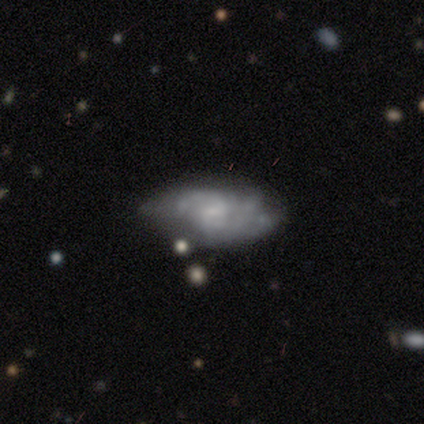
smooth_or_featured: featured or disk (p=0.55) [alt: smooth p=0.41]
disk_edge_on: no (p=0.96) [alt: yes p=0.04]
bar: no (p=0.74) [alt: weak p=0.26]
has_spiral_arms: yes (p=0.65) [alt: no p=0.35]
spiral_winding: tight (p=0.47) [alt: medium p=0.33]
spiral_arm_count: can't tell (p=0.53) [alt: 3 p=0.20]
bulge_size: small (p=0.57) [alt: none p=0.43]
merging: none (p=0.48) [alt: minor disturbance p=0.33]